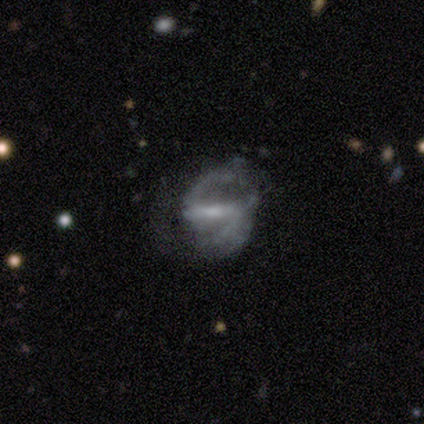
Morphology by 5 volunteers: Q: Smooth or featured?
A: featured or disk (100%)
Q: Edge-on disk?
A: no (100%)
Q: Bar?
A: strong (80%); runner-up: weak (20%)
Q: Spiral arms?
A: yes (100%)
Q: Spiral winding?
A: medium (60%); runner-up: tight (20%)
Q: Spiral arm count?
A: 2 (100%)
Q: Bulge size?
A: moderate (40%); tied with: small (40%)
Q: Merging?
A: none (80%); runner-up: minor disturbance (20%)